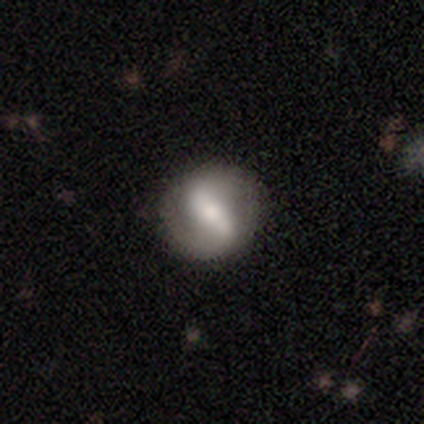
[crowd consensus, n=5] A featured or disk galaxy (60%) with a strong bar (100%), 2 (100%) medium (50%, tied with loose) spiral arms (67%) and a moderate central bulge (67%). Merging: none (80%).